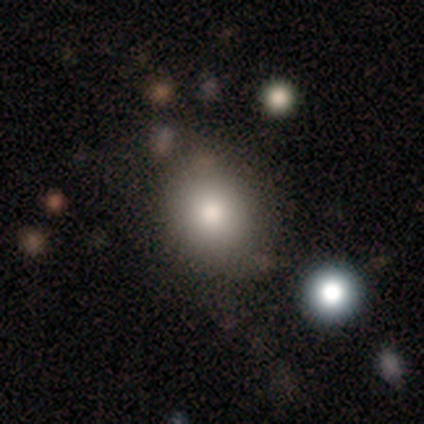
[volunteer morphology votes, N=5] Smooth or featured? smooth (100%)
How rounded? round (80%)
Merging? none (80%)